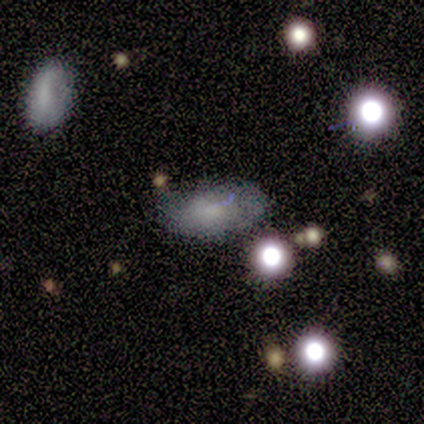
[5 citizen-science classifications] smooth 80%, featured or disk 20%, star or artifact 0%. Down the decision tree: how rounded — in between (100%); merging — minor disturbance (60%).